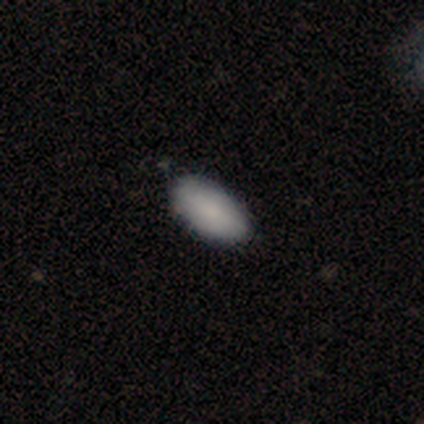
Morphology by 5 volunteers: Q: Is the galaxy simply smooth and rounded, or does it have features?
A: smooth — 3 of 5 (60%).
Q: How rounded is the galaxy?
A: in between — 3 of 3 (100%).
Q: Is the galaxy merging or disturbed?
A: none — 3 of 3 (100%).